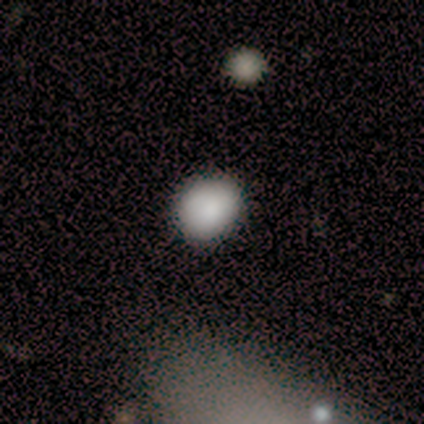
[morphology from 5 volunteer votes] Smooth or featured?
  - smooth: 100% *
  - featured or disk: 0%
  - star or artifact: 0%
How rounded?
  - round: 60% *
  - in between: 40%
  - cigar-shaped: 0%
Merging?
  - minor disturbance: 60% *
  - none: 40%
  - major disturbance: 0%
  - merger: 0%